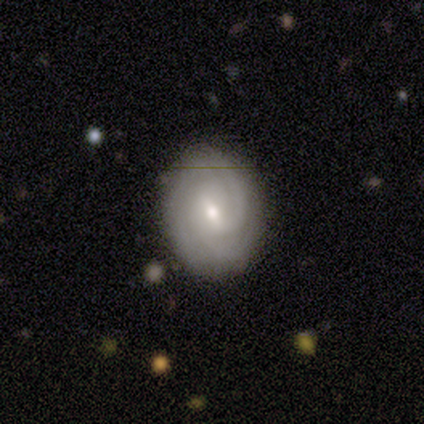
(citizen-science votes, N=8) featured or disk 75%, smooth 25%, star or artifact 0%. Down the decision tree: edge-on disk — no (100%); bar — weak (100%); spiral arms — yes (100%); spiral arm count — 2 (33%, tied with 3 and can't tell); spiral winding — tight (83%); bulge size — moderate (50%, tied with small); merging — none (75%).